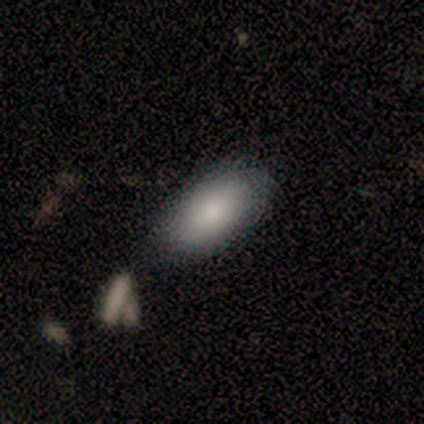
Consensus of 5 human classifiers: This is clearly a smooth galaxy (80%). How rounded: clearly in between (100%). Merging: clearly none (100%).